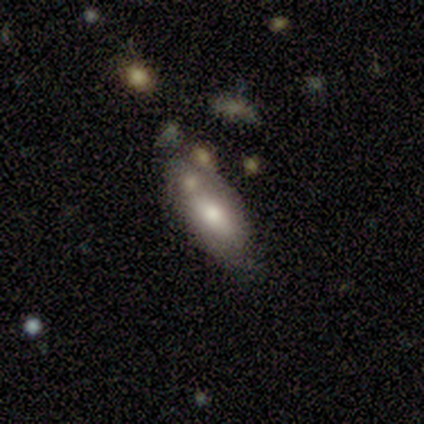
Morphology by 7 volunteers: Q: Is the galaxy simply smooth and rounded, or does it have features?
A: smooth — 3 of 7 (43%, tied with featured or disk).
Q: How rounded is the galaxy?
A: in between — 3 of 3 (100%).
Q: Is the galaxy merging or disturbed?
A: none — 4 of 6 (67%).